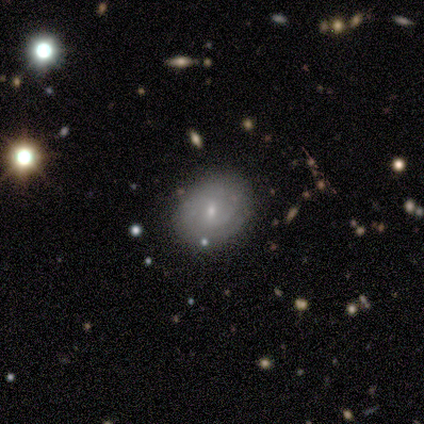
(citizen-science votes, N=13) This appears to be a featured or disk galaxy (69%) with a weak bar (67%), 2 (75%) tight (50%, tied with medium) spiral arms (89%) and a small central bulge (100%). Merging: none (73%).